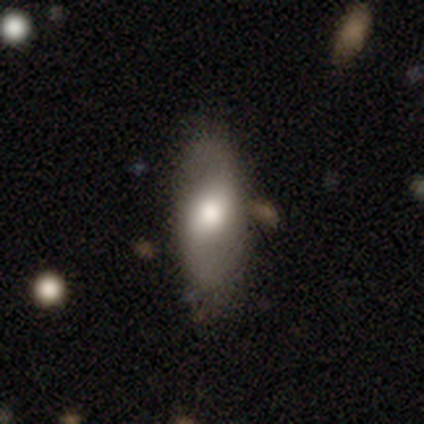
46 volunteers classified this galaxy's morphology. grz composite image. It shows a smooth galaxy with no disk features (61%) that is in between round and cigar-shaped (68%). Merging: none (76%).